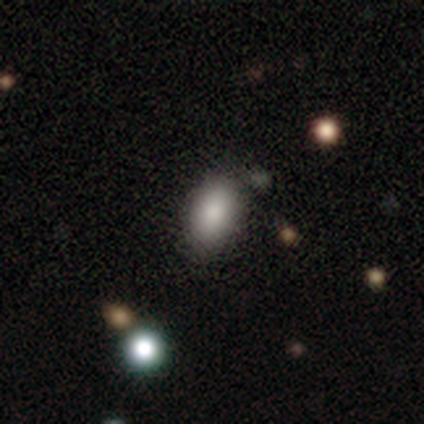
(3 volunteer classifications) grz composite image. It shows a smooth galaxy with no disk features (100%) that is in between round and cigar-shaped (100%). Merging: none (100%).